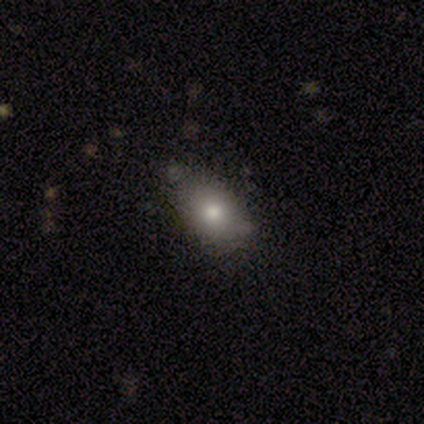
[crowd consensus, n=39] Smooth or featured?
  - smooth: 77% *
  - featured or disk: 13%
  - star or artifact: 10%
How rounded?
  - in between: 73% *
  - round: 23%
  - cigar-shaped: 3%
Merging?
  - none: 77% *
  - minor disturbance: 23%
  - major disturbance: 0%
  - merger: 0%